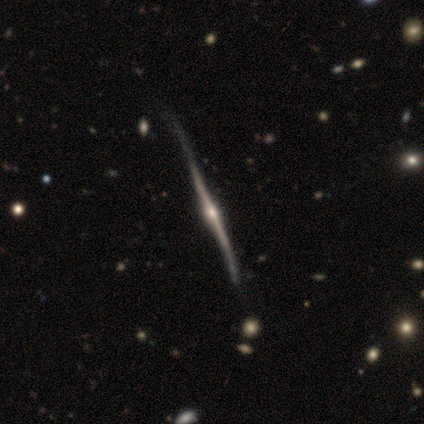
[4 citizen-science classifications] Smooth or featured: featured or disk — 75% (smooth — 25%)
Edge-on disk: yes — 100%
Edge-on bulge: rounded — 100%
Merging: none — 25% (tied with minor disturbance — 25%; major disturbance — 25%; merger — 25%)